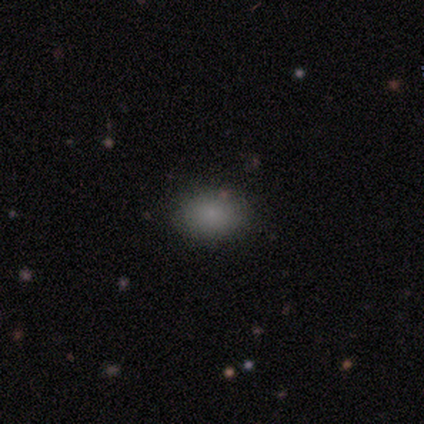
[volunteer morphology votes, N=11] This appears to be a smooth galaxy with no disk features (82%) that is in between round and cigar-shaped (67%). Merging: none (100%).